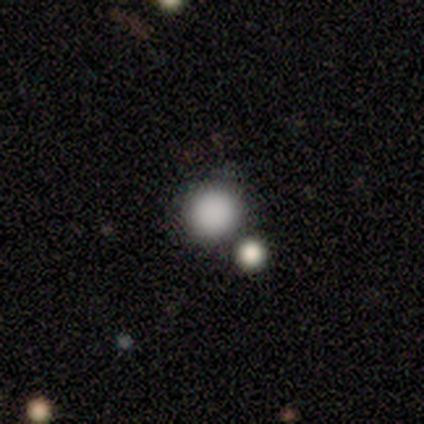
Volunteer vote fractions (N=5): smooth_or_featured: smooth (p=1.00)
how_rounded: round (p=1.00)
merging: none (p=1.00)